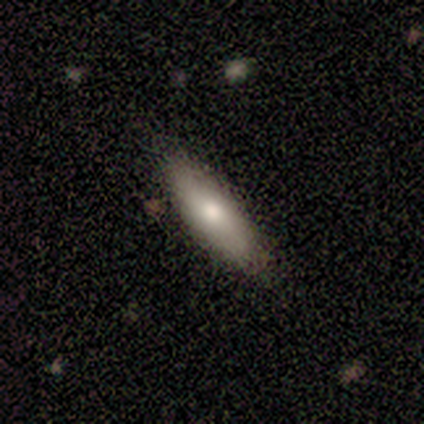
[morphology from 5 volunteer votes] Smooth or featured?
  - smooth: 60% *
  - featured or disk: 20%
  - star or artifact: 20%
How rounded?
  - cigar-shaped: 67% *
  - in between: 33%
  - round: 0%
Merging?
  - none: 100% *
  - minor disturbance: 0%
  - major disturbance: 0%
  - merger: 0%